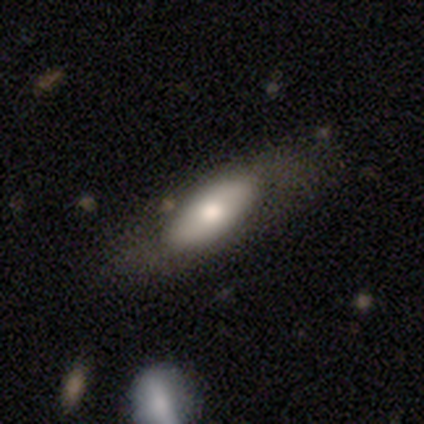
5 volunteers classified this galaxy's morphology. Q: Smooth or featured?
A: smooth (60%); runner-up: featured or disk (40%)
Q: How rounded?
A: in between (100%)
Q: Merging?
A: none (60%); runner-up: minor disturbance (20%)